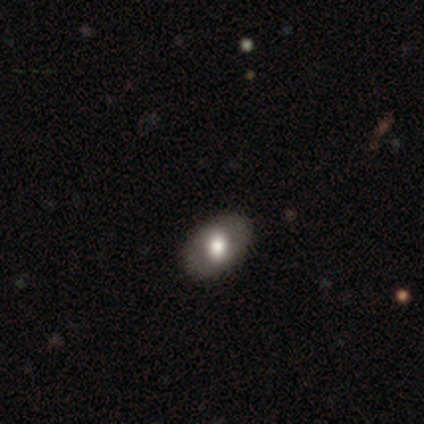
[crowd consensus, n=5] Smooth or featured?
  - smooth: 60% *
  - featured or disk: 20%
  - star or artifact: 20%
How rounded?
  - in between: 67% *
  - round: 33%
  - cigar-shaped: 0%
Merging?
  - none: 100% *
  - minor disturbance: 0%
  - major disturbance: 0%
  - merger: 0%